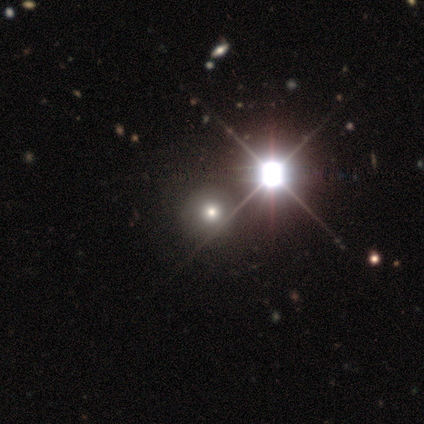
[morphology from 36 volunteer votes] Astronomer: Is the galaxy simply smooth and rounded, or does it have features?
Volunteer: smooth — 64%.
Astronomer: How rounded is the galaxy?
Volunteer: round — 87%.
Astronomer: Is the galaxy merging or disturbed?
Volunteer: none — 92%.